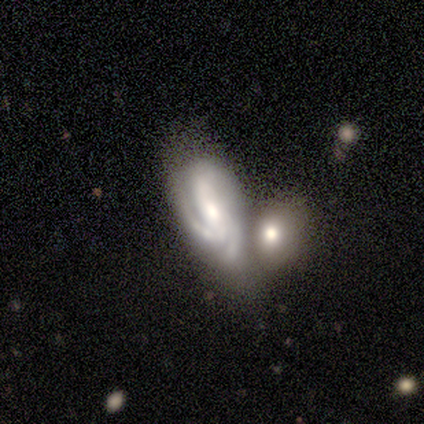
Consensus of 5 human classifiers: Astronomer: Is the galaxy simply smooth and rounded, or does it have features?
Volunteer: featured or disk — 100%.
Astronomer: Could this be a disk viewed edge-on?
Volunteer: no — 80%.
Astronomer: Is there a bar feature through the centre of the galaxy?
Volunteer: no — 75%.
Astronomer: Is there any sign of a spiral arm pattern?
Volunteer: yes — 100%.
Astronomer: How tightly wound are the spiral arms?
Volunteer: medium — 75%.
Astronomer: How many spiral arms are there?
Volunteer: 3 — 50%.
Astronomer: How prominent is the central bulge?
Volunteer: moderate — 75%.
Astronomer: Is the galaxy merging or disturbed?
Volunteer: merger — 40% (runner-up: none, 20%).